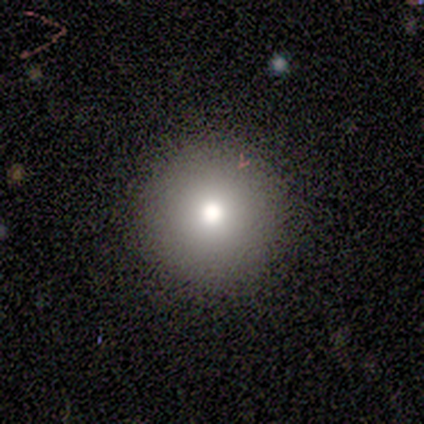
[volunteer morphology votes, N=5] smooth 60%, star or artifact 40%, featured or disk 0%. Down the decision tree: how rounded — round (100%); merging — none (33%, tied with minor disturbance and major disturbance).